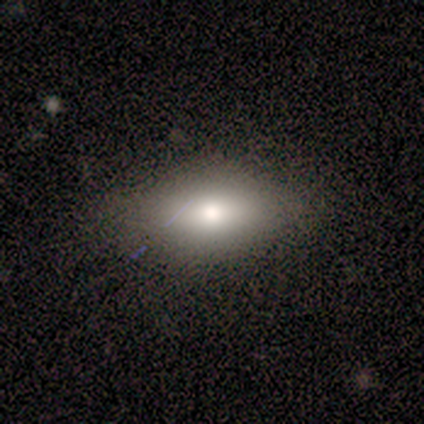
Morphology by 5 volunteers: smooth-or-featured: smooth: 100% | featured or disk: 0% | star or artifact: 0%
  how-rounded: in between: 100% | round: 0% | cigar-shaped: 0%
  merging: none: 100% | minor disturbance: 0% | major disturbance: 0% | merger: 0%